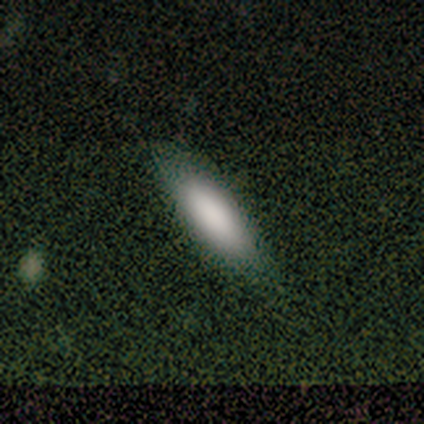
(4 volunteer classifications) A smooth galaxy with no disk features (100%) that is in between round and cigar-shaped (75%). Merging: none (100%).